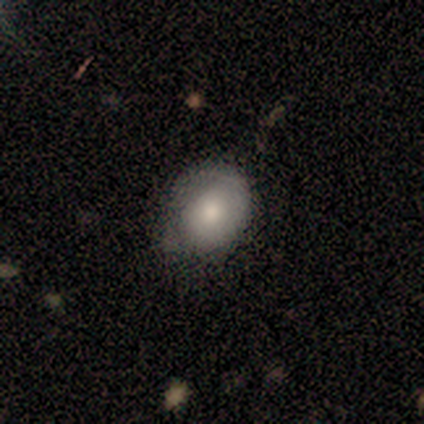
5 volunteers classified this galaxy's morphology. smooth 60%, featured or disk 40%, star or artifact 0%. Down the decision tree: how rounded — round (67%); merging — none (100%).